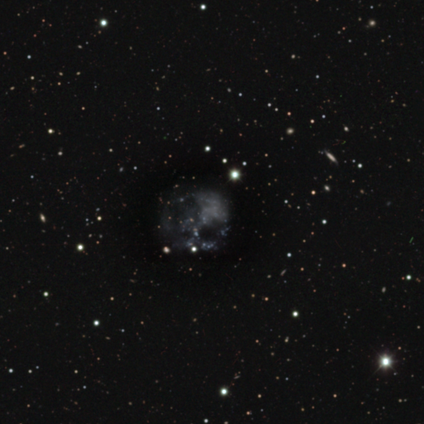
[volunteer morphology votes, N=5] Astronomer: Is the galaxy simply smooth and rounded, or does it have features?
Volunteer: star or artifact — 60% (runner-up: featured or disk, 40%).